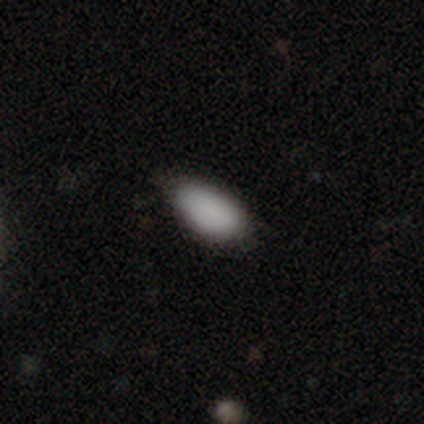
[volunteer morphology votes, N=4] Smooth or featured?
  - smooth: 75% *
  - star or artifact: 25%
  - featured or disk: 0%
How rounded?
  - in between: 100% *
  - round: 0%
  - cigar-shaped: 0%
Merging?
  - none: 67% *
  - major disturbance: 33%
  - minor disturbance: 0%
  - merger: 0%